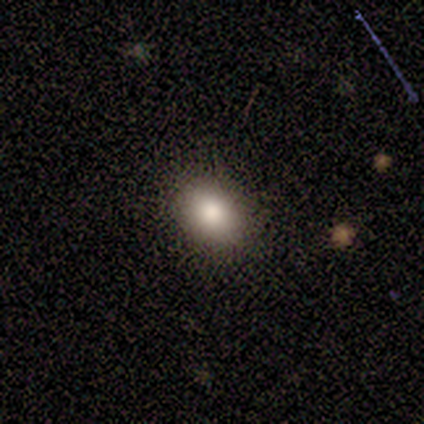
A smooth galaxy with no disk features (80%) that is in between round and cigar-shaped (75%). Merging: none (100%).